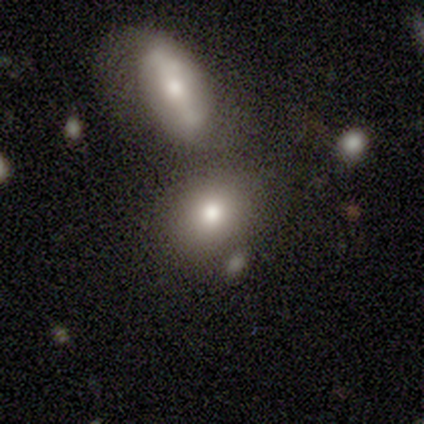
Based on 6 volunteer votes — Overall: smooth (67%). How rounded: in between (75%). Merging: merger (60%; minor disturbance 40%).